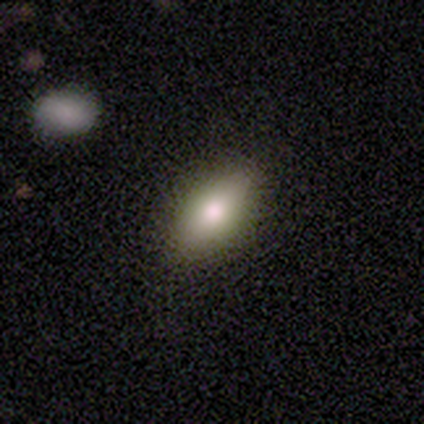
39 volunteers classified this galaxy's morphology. Q: Smooth or featured?
A: smooth (69%); runner-up: featured or disk (21%)
Q: How rounded?
A: in between (93%); runner-up: round (4%)
Q: Merging?
A: none (89%); runner-up: minor disturbance (9%)